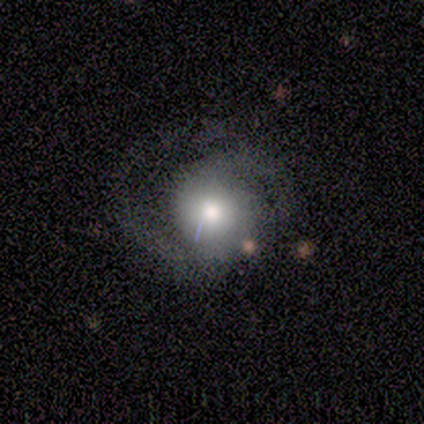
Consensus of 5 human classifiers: Smooth or featured? 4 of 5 (80%) said smooth. How rounded? 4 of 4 (100%) said round. Merging? 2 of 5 (40%, tied with major disturbance) said minor disturbance.